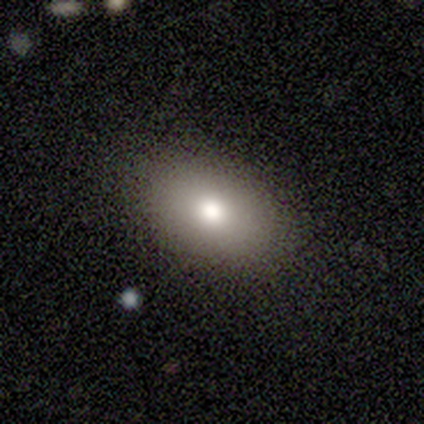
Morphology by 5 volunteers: Smooth or featured? 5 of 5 (100%) said smooth. How rounded? 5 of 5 (100%) said in between. Merging? 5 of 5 (100%) said none.